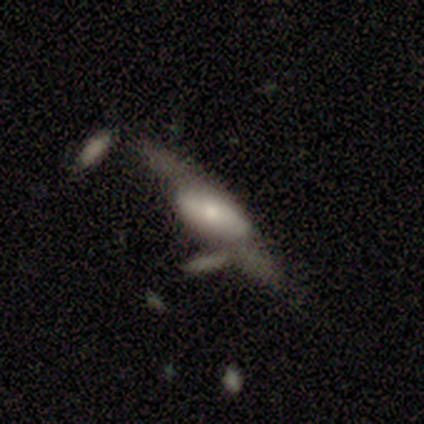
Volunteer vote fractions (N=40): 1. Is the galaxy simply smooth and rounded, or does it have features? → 50% featured or disk, 38% smooth, 12% star or artifact.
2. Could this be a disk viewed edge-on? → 65% no, 35% yes.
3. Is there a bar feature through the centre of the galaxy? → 62% no, 23% weak, 15% strong.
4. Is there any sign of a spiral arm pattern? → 77% no, 23% yes.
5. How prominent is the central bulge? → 38% moderate (tied), 38% small (tied), 23% large, 0% dominant, 0% none.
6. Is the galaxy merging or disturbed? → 43% none, 23% major disturbance, 20% minor disturbance, 14% merger.